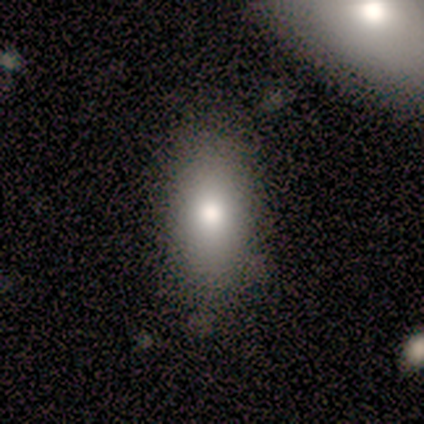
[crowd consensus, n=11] Smooth or featured: smooth — 91% (featured or disk — 9%)
How rounded: in between — 80% (cigar-shaped — 20%)
Merging: none — 82% (minor disturbance — 9%)